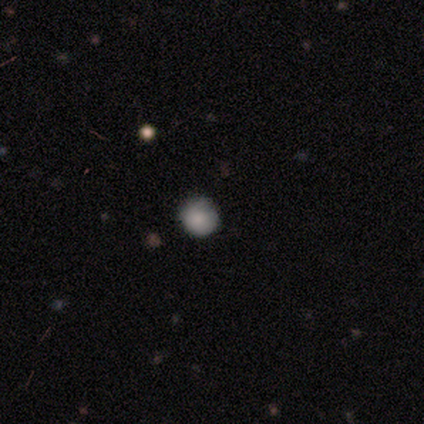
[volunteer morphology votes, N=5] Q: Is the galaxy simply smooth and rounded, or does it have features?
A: smooth — 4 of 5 (80%).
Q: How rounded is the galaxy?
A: round — 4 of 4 (100%).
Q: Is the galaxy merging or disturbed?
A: none — 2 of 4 (50%, tied with minor disturbance).